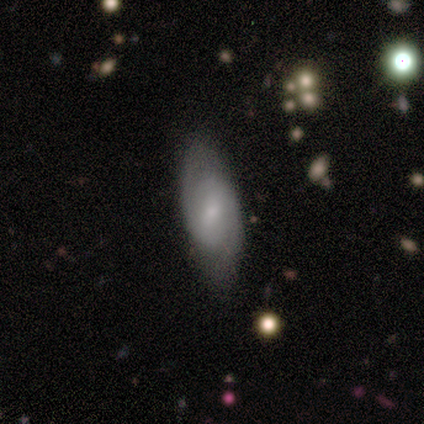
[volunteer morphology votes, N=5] Smooth or featured? featured or disk (80%)
Edge-on disk? no (75%)
Bar? weak (67%)
Spiral arms? yes (100%)
Spiral winding? loose (67%)
Spiral arm count? 2 (100%)
Bulge size? small (100%)
Merging? none (80%)